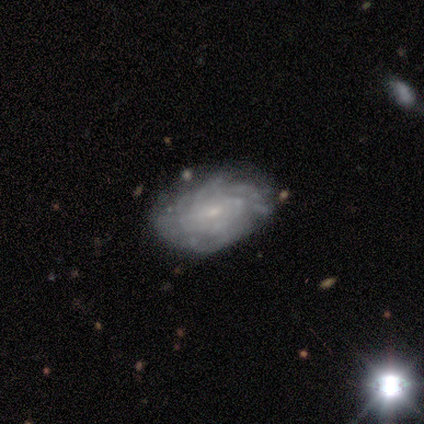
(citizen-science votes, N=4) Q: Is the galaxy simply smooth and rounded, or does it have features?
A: featured or disk — 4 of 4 (100%).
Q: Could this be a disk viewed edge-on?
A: no — 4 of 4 (100%).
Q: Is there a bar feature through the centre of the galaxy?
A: no — 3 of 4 (75%).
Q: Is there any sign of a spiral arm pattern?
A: yes — 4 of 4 (100%).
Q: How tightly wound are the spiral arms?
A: tight — 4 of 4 (100%).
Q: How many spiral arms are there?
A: more than 4 — 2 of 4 (50%, tied with can't tell).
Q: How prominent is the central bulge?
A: small — 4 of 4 (100%).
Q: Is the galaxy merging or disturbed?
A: none — 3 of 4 (75%).